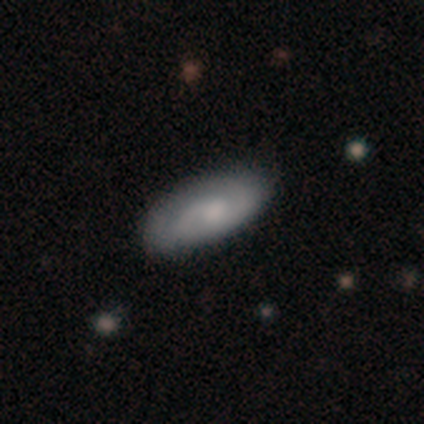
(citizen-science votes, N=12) Overall: featured or disk (58%; smooth 42%). Edge-on disk: no (100%). Bar: no (86%). Spiral arms: yes (100%). Spiral arm count: 2 (71%). Spiral winding: medium (57%; loose 29%). Bulge size: moderate (71%). Merging: none (92%).